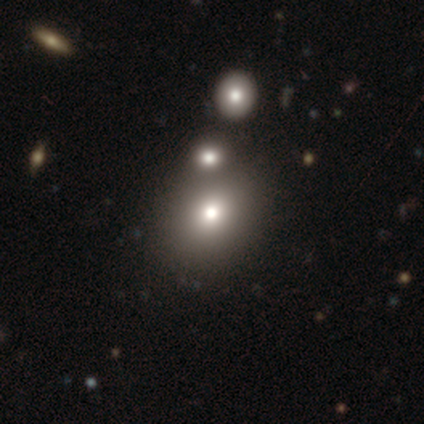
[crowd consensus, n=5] Volunteers were most divided on "how rounded": round: 60%, in between: 20%, cigar-shaped: 20%. More confident: smooth or featured — smooth (100%); merging — merger (60%).